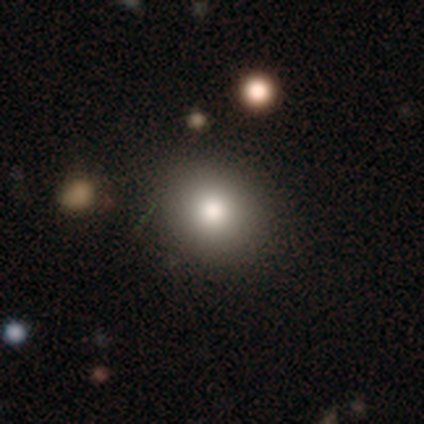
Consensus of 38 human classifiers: This is clearly a smooth galaxy (87%). How rounded: clearly round (94%). Merging: clearly none (94%).